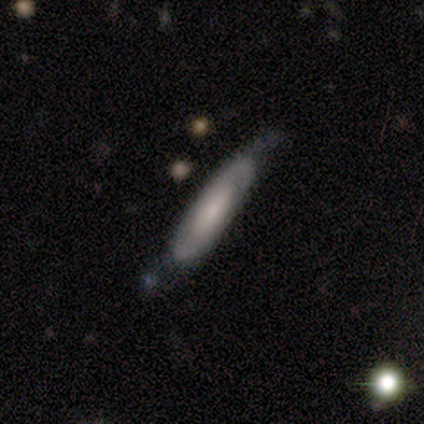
Smooth or featured? featured or disk (83%)
Edge-on disk? no (60%)
Bar? no (67%)
Spiral arms? yes (100%)
Spiral winding? medium (67%)
Spiral arm count? 2 (67%)
Bulge size? small (67%)
Merging? none (83%)